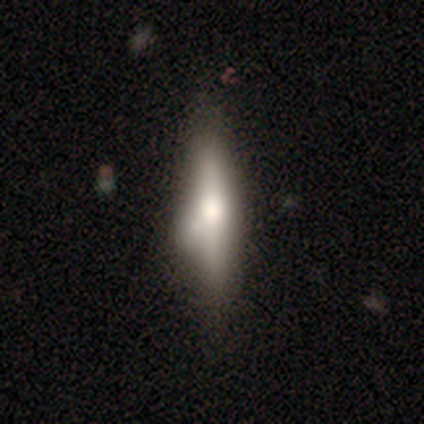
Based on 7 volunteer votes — This is possibly a smooth galaxy (57%). How rounded: likely cigar-shaped (75%). Merging: possibly none (57%).